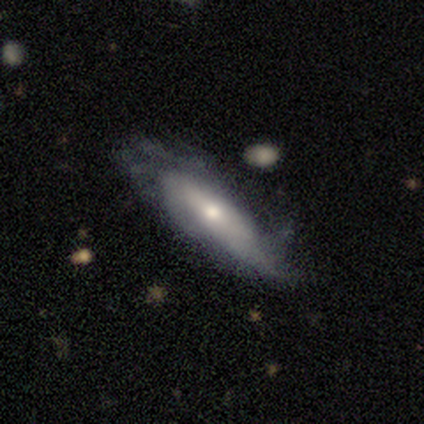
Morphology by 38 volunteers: smooth-or-featured: featured or disk: 53% | smooth: 42% | star or artifact: 5%
  disk-edge-on: no: 60% | yes: 40%
    bar: no: 75% | weak: 25% | strong: 0%
    has-spiral-arms: no: 58% | yes: 42%
    bulge-size: small: 42% | large: 25% | moderate: 25% | none: 8% | dominant: 0%
  merging: none: 56% | minor disturbance: 22% | major disturbance: 19% | merger: 3%